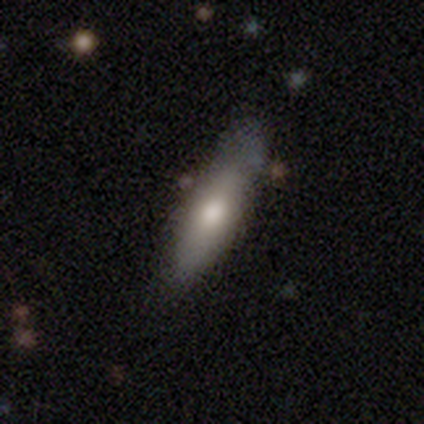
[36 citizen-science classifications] A smooth galaxy with no disk features (67%) that is cigar-shaped (58%).

Vote fractions:
- Smooth or featured? smooth: 67% / featured or disk: 28% / star or artifact: 6%
- How rounded? cigar-shaped: 58% / in between: 42% / round: 0%
- Merging? none: 71% / minor disturbance: 24% / major disturbance: 3% / merger: 3%